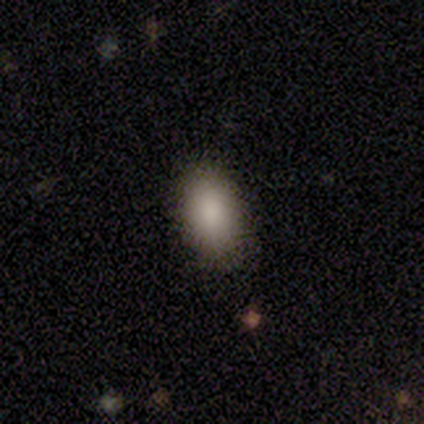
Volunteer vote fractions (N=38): smooth_or_featured: smooth (p=0.84) [alt: featured or disk p=0.08]
how_rounded: in between (p=0.91) [alt: round p=0.06]
merging: none (p=0.86) [alt: minor disturbance p=0.14]